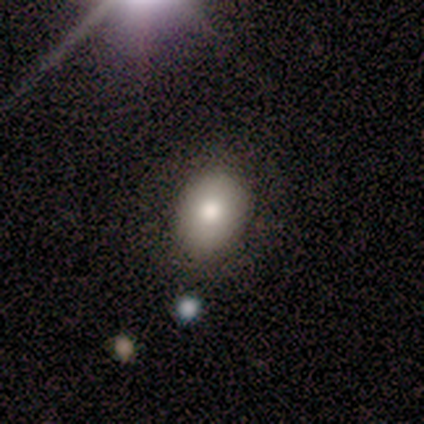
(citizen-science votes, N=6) This is clearly a smooth galaxy (100%). How rounded: likely in between (67%). Merging: clearly none (100%).